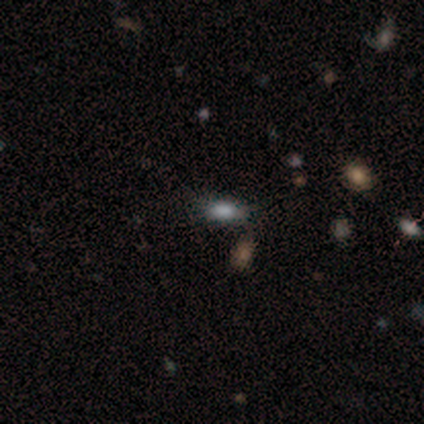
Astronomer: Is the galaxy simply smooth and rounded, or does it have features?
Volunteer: star or artifact — 60% (runner-up: smooth, 40%).